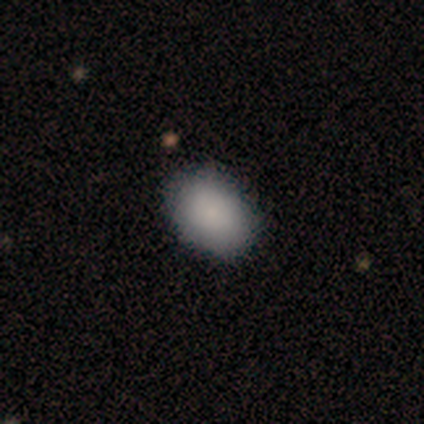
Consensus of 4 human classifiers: This is likely a smooth galaxy (75%). How rounded: clearly in between (100%). Merging: likely none (75%).